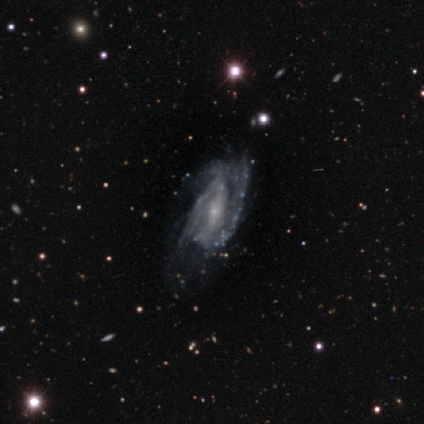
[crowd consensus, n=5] Smooth or featured: featured or disk — 100%
Edge-on disk: no — 100%
Bar: strong — 40% (tied with no — 40%)
Spiral arms: yes — 80% (no — 20%)
Spiral winding: tight — 75% (loose — 25%)
Spiral arm count: 2 — 50% (3 — 25%)
Bulge size: small — 80% (none — 20%)
Merging: none — 60% (major disturbance — 40%)